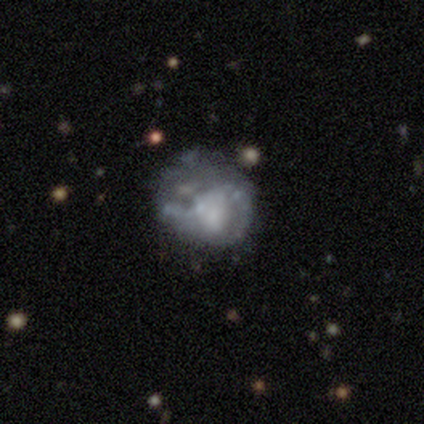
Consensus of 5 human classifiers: Smooth or featured: featured or disk — 100%
Edge-on disk: no — 100%
Bar: no — 80% (weak — 20%)
Spiral arms: no — 100%
Bulge size: none — 80% (moderate — 20%)
Merging: none — 40% (tied with minor disturbance — 40%)